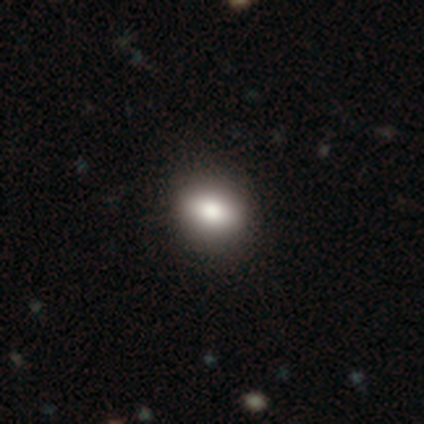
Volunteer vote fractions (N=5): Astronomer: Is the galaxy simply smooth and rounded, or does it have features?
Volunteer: smooth — 60% (runner-up: featured or disk, 40%).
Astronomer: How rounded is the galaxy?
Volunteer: in between — 67%.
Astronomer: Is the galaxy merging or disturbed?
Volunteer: none — 80%.